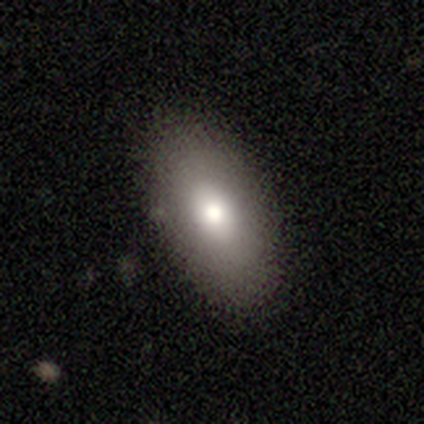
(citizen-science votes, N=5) Volunteers were most divided on "smooth or featured": smooth: 60%, featured or disk: 20%, star or artifact: 20%. More confident: how rounded — in between (100%); merging — none (100%).